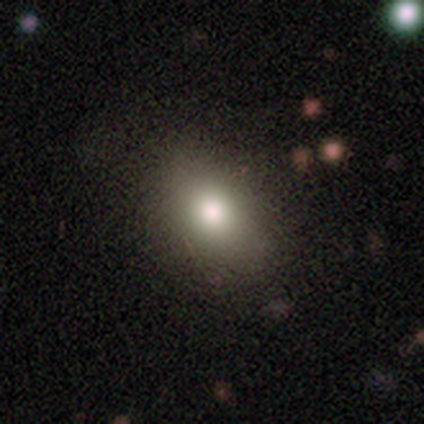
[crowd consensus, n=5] Smooth or featured: smooth — 80% (star or artifact — 20%)
How rounded: in between — 50% (round — 25%)
Merging: none — 75% (minor disturbance — 25%)